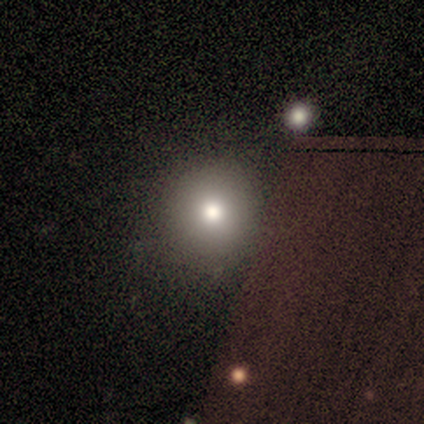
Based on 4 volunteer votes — A star or artifact, not a galaxy (75%).

Vote fractions:
- Smooth or featured? star or artifact: 75% / featured or disk: 25% / smooth: 0%